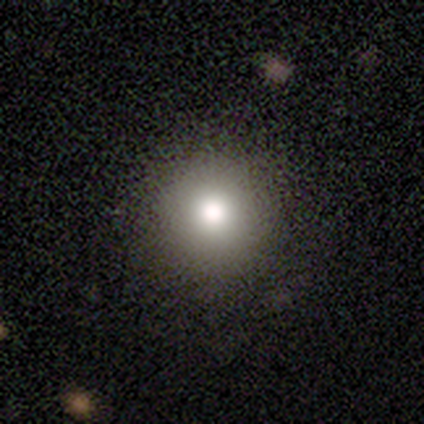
Volunteers were most divided on "smooth or featured": smooth: 79%, featured or disk: 10%, star or artifact: 10%. More confident: how rounded — round (97%); merging — none (94%).